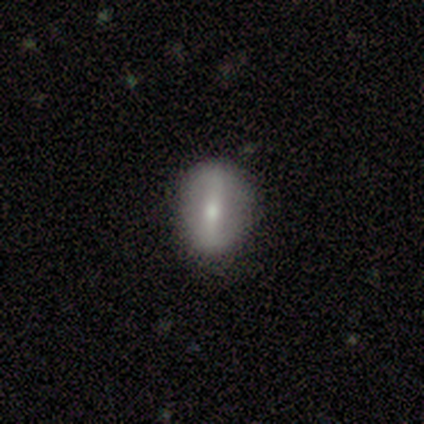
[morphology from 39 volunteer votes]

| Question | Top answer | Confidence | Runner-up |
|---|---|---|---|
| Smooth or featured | smooth | 49% | featured or disk (46%) |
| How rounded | in between | 58% | round (32%) |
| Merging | none | 97% | minor disturbance (3%) |